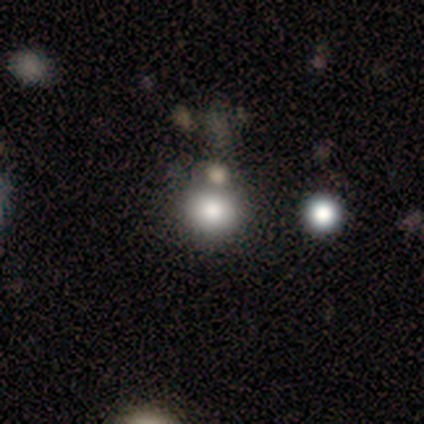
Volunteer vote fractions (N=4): Smooth or featured? smooth (75%)
How rounded? round (100%)
Merging? none (100%)